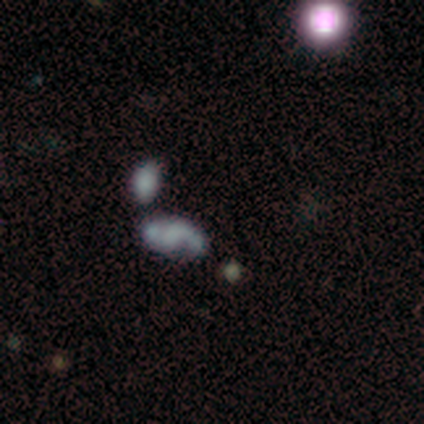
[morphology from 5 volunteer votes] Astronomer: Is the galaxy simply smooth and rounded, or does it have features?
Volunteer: star or artifact — 60%.